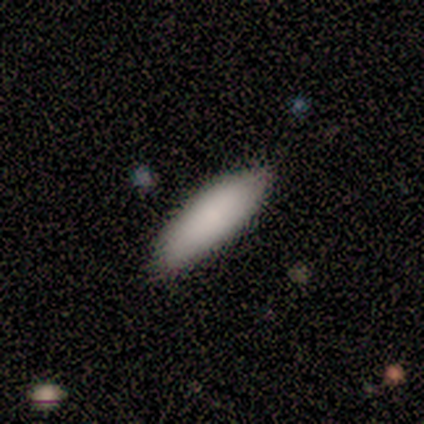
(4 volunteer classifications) A smooth galaxy with no disk features (50%) that is in between round and cigar-shaped (100%). Merging: none (100%).